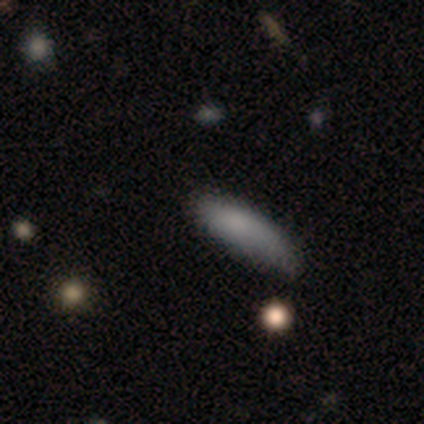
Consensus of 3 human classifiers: This appears to be a smooth galaxy with no disk features (100%) that is cigar-shaped (67%). Merging: none (67%).